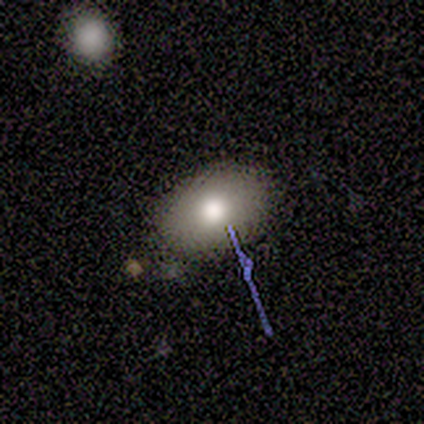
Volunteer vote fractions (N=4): A smooth galaxy with no disk features (75%) that is in between round and cigar-shaped (67%). Merging: none (100%).